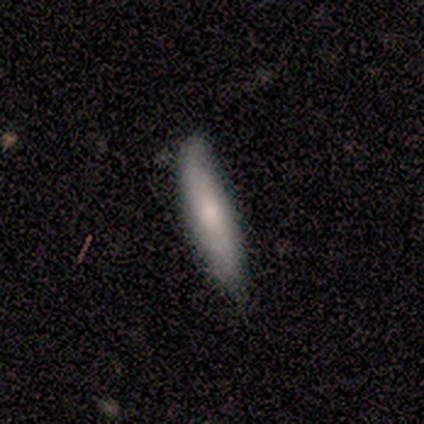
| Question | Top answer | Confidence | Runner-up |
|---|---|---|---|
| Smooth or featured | smooth | 80% | featured or disk (20%) |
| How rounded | cigar-shaped | 100% | — |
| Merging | none | 60% | minor disturbance (20%) |